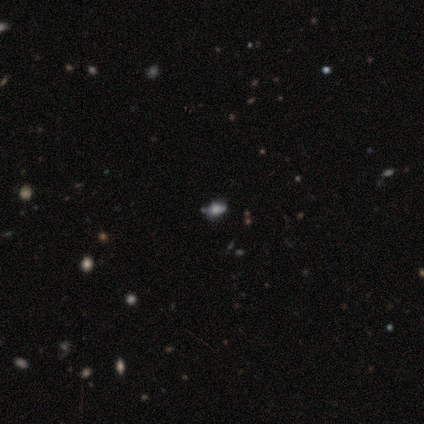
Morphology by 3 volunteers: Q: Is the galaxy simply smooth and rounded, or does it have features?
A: smooth — 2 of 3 (67%).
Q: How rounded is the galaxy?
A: in between — 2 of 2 (100%).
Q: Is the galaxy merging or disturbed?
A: none — 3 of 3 (100%).